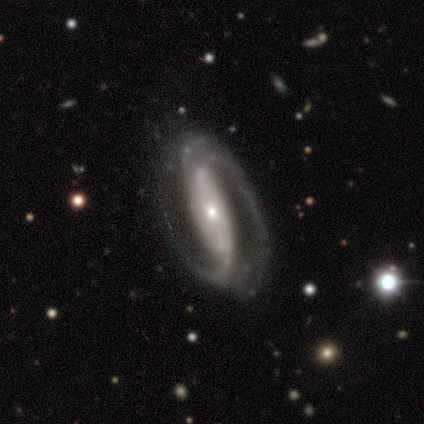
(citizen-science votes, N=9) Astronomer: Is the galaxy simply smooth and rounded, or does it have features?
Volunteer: featured or disk — 89%.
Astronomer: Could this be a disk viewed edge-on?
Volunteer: no — 100%.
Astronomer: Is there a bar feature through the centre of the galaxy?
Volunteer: strong — 38%, tied with weak at 38%.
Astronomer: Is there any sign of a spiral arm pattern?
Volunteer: yes — 100%.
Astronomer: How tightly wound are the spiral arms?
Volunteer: medium — 75%.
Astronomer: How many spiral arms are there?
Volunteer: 2 — 62%.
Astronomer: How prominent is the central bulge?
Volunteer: small — 62%.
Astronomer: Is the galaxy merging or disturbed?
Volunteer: none — 88%.